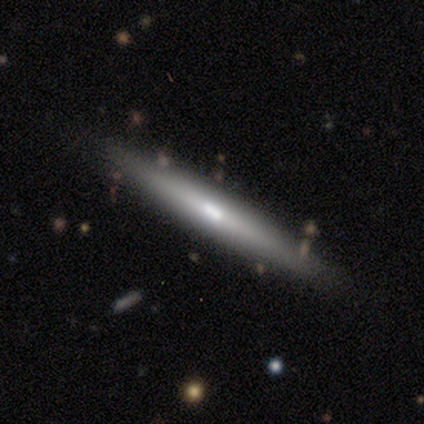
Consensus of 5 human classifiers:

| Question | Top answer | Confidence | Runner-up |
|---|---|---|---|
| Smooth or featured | featured or disk | 60% | smooth (40%) |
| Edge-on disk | yes | 100% | — |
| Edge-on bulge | none | 67% | boxy (33%) |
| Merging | none | 100% | — |